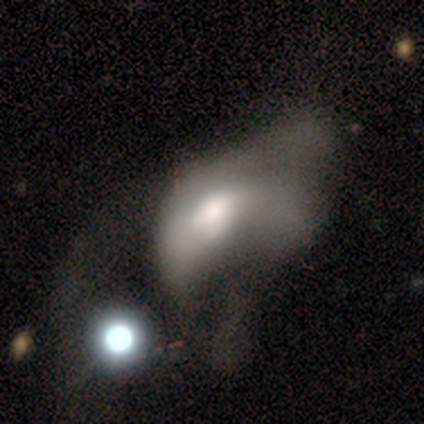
smooth_or_featured: featured or disk (p=0.60) [alt: smooth p=0.40]
disk_edge_on: no (p=1.00)
bar: no (p=1.00)
has_spiral_arms: no (p=1.00)
bulge_size: large (p=0.67) [alt: moderate p=0.33]
merging: major disturbance (p=0.80) [alt: minor disturbance p=0.20]